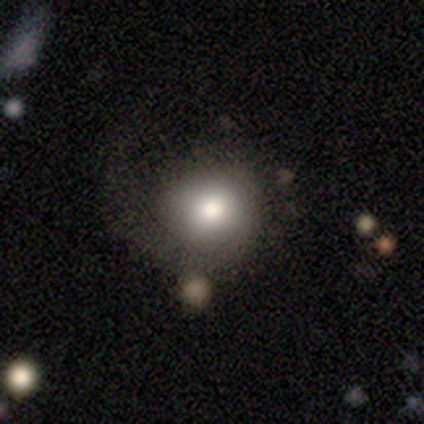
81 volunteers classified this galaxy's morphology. Smooth or featured?
  - smooth: 69% *
  - featured or disk: 21%
  - star or artifact: 10%
How rounded?
  - round: 86% *
  - in between: 14%
  - cigar-shaped: 0%
Merging?
  - none: 48% *
  - major disturbance: 37%
  - minor disturbance: 11%
  - merger: 4%